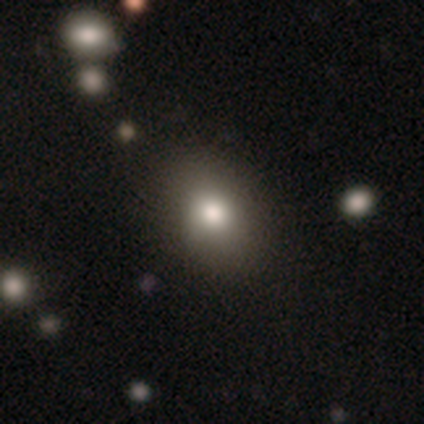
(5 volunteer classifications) This is clearly a smooth galaxy (80%). How rounded: likely in between (75%). Merging: clearly none (80%).